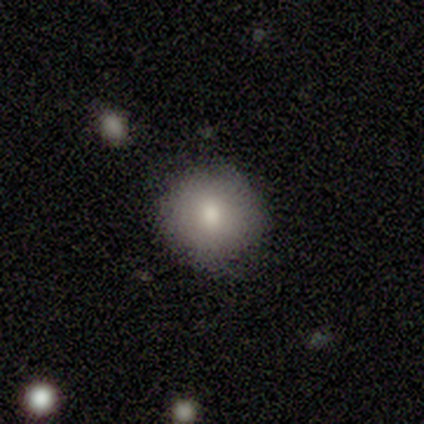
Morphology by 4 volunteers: A smooth galaxy with no disk features (100%) that is round (100%). Merging: none (100%).